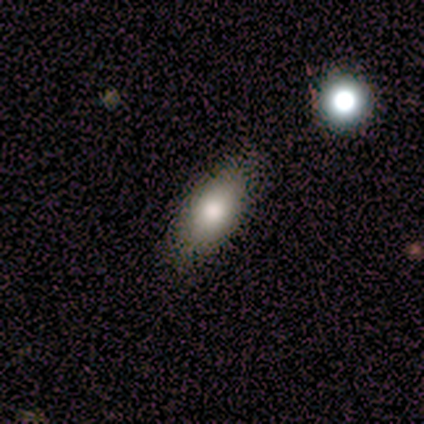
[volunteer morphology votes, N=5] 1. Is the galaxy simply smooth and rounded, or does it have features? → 60% smooth, 20% featured or disk, 20% star or artifact.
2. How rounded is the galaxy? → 100% in between, 0% round, 0% cigar-shaped.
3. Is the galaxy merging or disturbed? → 75% none, 25% minor disturbance, 0% major disturbance, 0% merger.